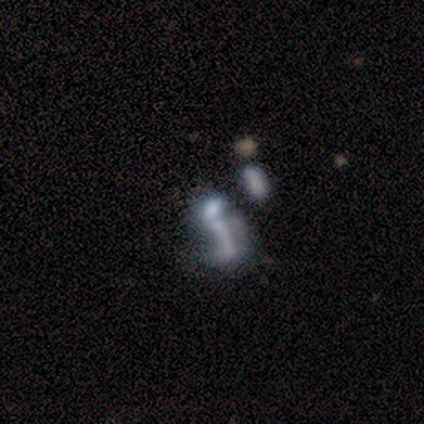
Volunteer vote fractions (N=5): Smooth or featured? 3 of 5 (60%) said featured or disk. Edge-on disk? 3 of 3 (100%) said no. Bar? 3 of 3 (100%) said no. Spiral arms? 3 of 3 (100%) said no. Bulge size? 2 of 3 (67%) said none. Merging? 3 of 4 (75%) said major disturbance.